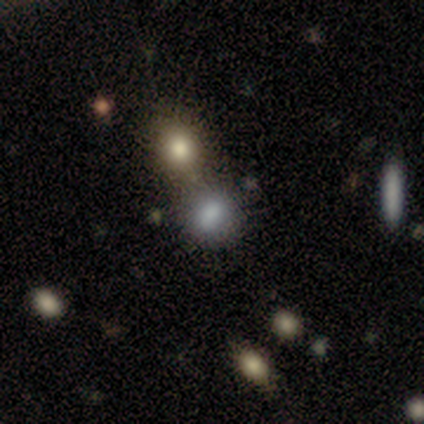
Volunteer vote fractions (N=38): smooth 71%, featured or disk 16%, star or artifact 13%. Down the decision tree: how rounded — round (67%); merging — none (45%).